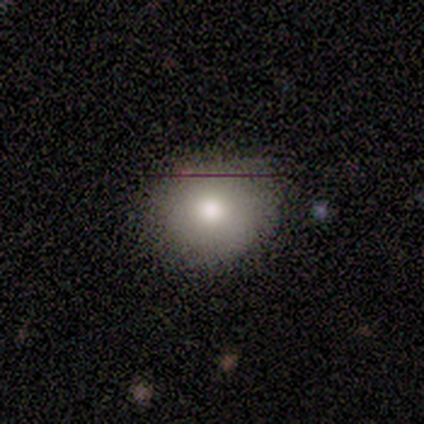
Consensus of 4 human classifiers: Smooth or featured?
  - smooth: 75% *
  - star or artifact: 25%
  - featured or disk: 0%
How rounded?
  - round: 67% *
  - in between: 33%
  - cigar-shaped: 0%
Merging?
  - none: 67% *
  - minor disturbance: 33%
  - major disturbance: 0%
  - merger: 0%